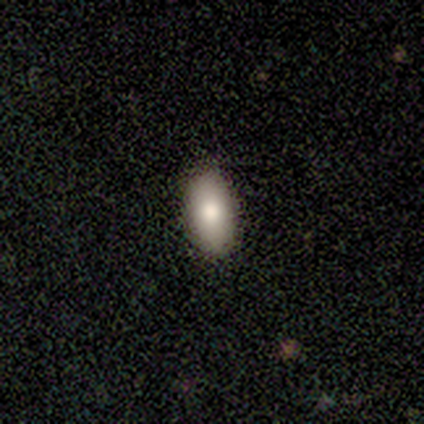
Smooth or featured?
  - smooth: 89% *
  - star or artifact: 11%
  - featured or disk: 0%
How rounded?
  - in between: 100% *
  - round: 0%
  - cigar-shaped: 0%
Merging?
  - none: 100% *
  - minor disturbance: 0%
  - major disturbance: 0%
  - merger: 0%